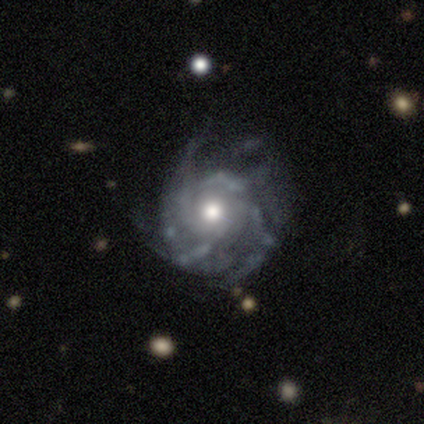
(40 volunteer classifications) Volunteers were most divided on "spiral arm count": can't tell: 50%, 3: 31%, 2: 6%, 4: 6%, more than 4: 6%, 1: 0%. More confident: edge-on disk — no (100%); smooth or featured — featured or disk (90%); spiral arms — yes (89%); bar — no (83%); bulge size — moderate (75%); spiral winding — tight (56%); merging — none (54%).